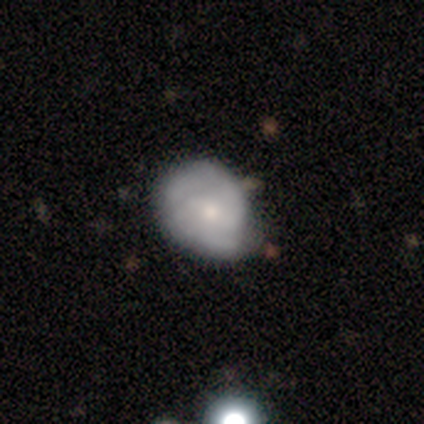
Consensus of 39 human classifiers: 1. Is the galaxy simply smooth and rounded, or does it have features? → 51% featured or disk, 46% smooth, 3% star or artifact.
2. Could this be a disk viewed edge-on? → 95% no, 5% yes.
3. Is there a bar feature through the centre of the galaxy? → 58% weak, 42% no, 0% strong.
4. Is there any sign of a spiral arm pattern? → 89% yes, 11% no.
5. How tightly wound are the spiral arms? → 59% medium, 29% tight, 12% loose.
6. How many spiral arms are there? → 71% 2, 18% 3, 6% 1, 6% can't tell, 0% 4, 0% more than 4.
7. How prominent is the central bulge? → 63% small, 37% moderate, 0% dominant, 0% large, 0% none.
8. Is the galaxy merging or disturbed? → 71% none, 29% minor disturbance, 0% major disturbance, 0% merger.